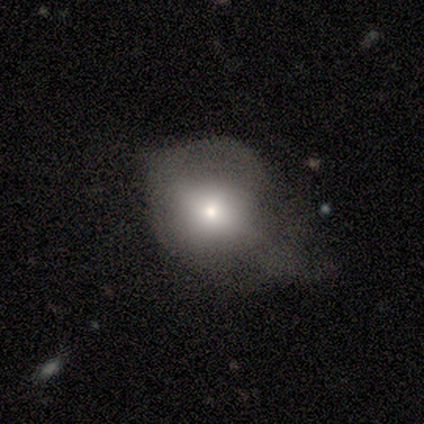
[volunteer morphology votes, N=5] A featured or disk galaxy (80%) viewed edge-on (50%, tied with no) with a rounded central bulge (100%).

Vote fractions:
- Smooth or featured? featured or disk: 80% / smooth: 20% / star or artifact: 0%
- Edge-on disk? yes: 50% (tied) / no: 50% (tied)
- Edge-on bulge? rounded: 100% / boxy: 0% / none: 0%
- Merging? none: 40% (tied) / major disturbance: 40% (tied) / merger: 20% / minor disturbance: 0%